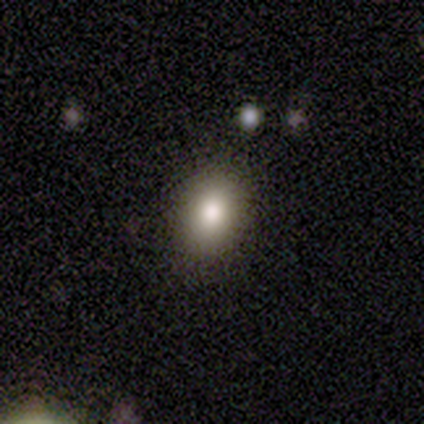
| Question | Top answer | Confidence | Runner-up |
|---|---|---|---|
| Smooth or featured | smooth | 100% | — |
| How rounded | in between | 60% | round (40%) |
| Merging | none | 100% | — |